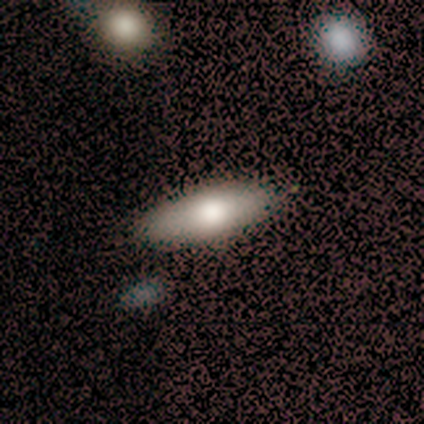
Overall: smooth (59%; featured or disk 23%). How rounded: in between (57%; cigar-shaped 43%). Merging: none (62%).